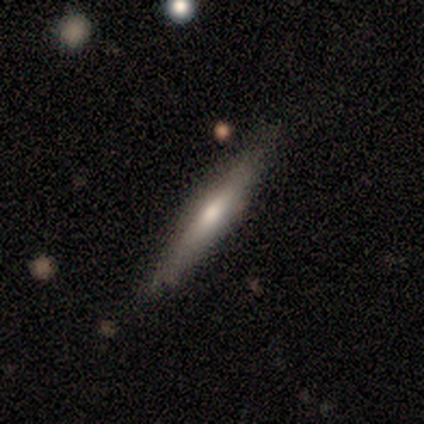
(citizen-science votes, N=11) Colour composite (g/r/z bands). It shows a smooth galaxy with no disk features (73%) that is cigar-shaped (100%). Merging: none (91%).